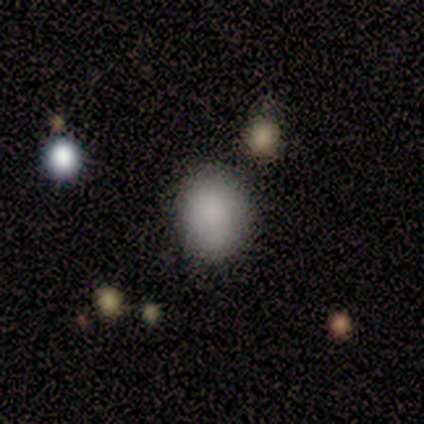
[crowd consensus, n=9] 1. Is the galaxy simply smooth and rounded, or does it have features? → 89% smooth, 11% featured or disk, 0% star or artifact.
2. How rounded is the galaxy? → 50% round (tied), 50% in between (tied), 0% cigar-shaped.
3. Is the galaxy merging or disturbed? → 89% none, 11% major disturbance, 0% minor disturbance, 0% merger.